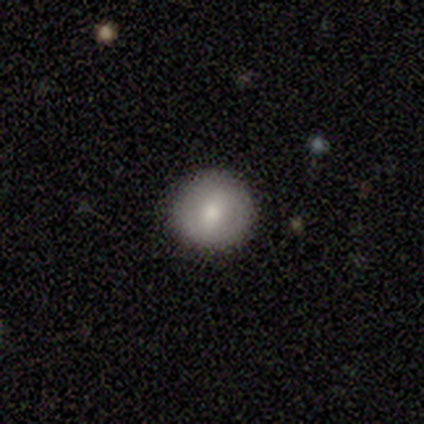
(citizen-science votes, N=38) A smooth galaxy with no disk features (79%) that is round (93%). Merging: none (97%).